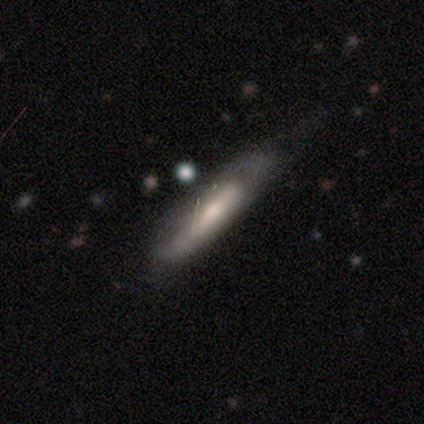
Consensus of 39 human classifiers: Volunteers were most divided on "smooth or featured": smooth: 51%, featured or disk: 44%, star or artifact: 5%. Remaining: how rounded — cigar-shaped (85%); merging — none (43%).